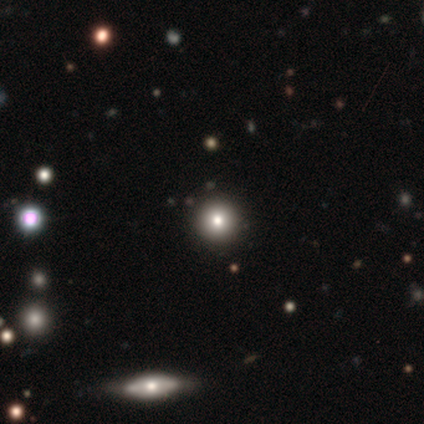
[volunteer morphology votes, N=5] Q: Smooth or featured?
A: smooth (80%); runner-up: featured or disk (20%)
Q: How rounded?
A: round (100%)
Q: Merging?
A: none (100%)